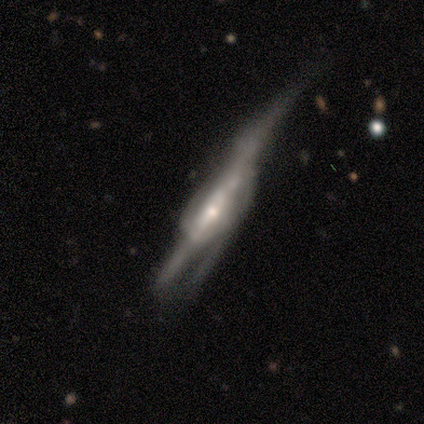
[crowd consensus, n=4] Overall: smooth (50%, tied with featured or disk). How rounded: cigar-shaped (100%). Merging: major disturbance (50%; none 25%).